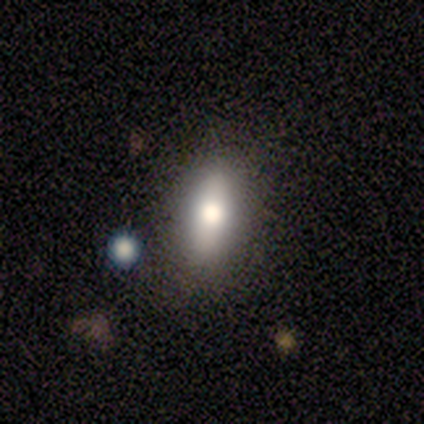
smooth-or-featured: smooth: 75% | star or artifact: 25% | featured or disk: 0%
  how-rounded: in between: 67% | cigar-shaped: 33% | round: 0%
  merging: none: 67% | minor disturbance: 33% | major disturbance: 0% | merger: 0%